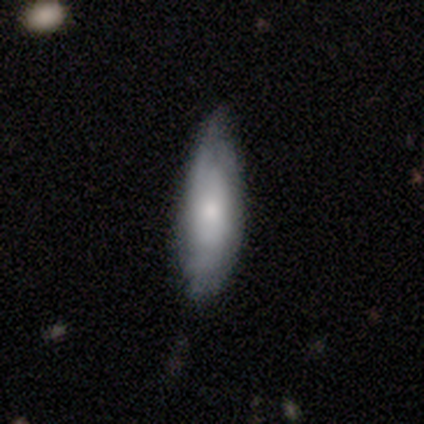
smooth-or-featured: smooth: 59% | featured or disk: 38% | star or artifact: 2%
  how-rounded: in between: 67% | cigar-shaped: 33% | round: 0%
  merging: none: 32% | minor disturbance: 18% | major disturbance: 1% | merger: 0%